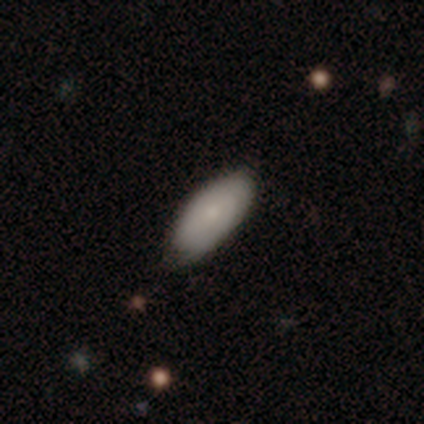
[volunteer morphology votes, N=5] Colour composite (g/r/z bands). It shows a smooth galaxy with no disk features (60%) that is in between round and cigar-shaped (100%). Merging: none (100%).